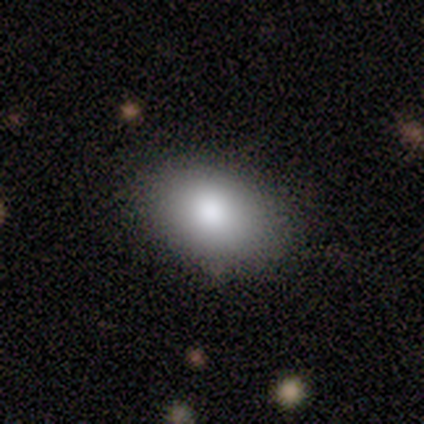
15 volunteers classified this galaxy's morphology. Smooth or featured? smooth (93%)
How rounded? in between (93%)
Merging? none (93%)